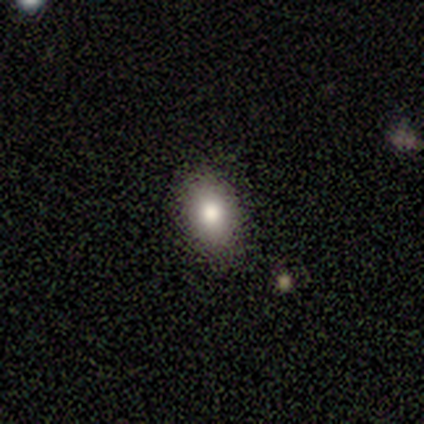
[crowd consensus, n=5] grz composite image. It shows a smooth galaxy with no disk features (100%) that is in between round and cigar-shaped (80%). Merging: none (80%).